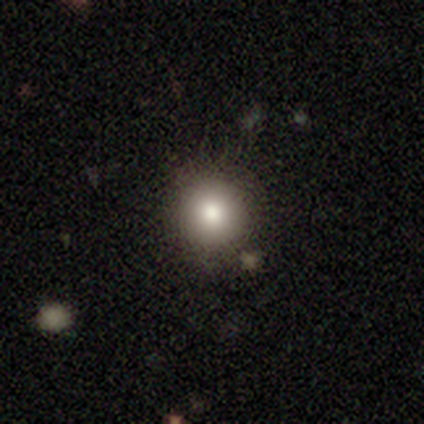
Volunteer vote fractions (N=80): smooth-or-featured: smooth: 80% | featured or disk: 12% | star or artifact: 8%
  how-rounded: round: 98% | in between: 2% | cigar-shaped: 0%
  merging: none: 39% | merger: 9% | minor disturbance: 7% | major disturbance: 1%